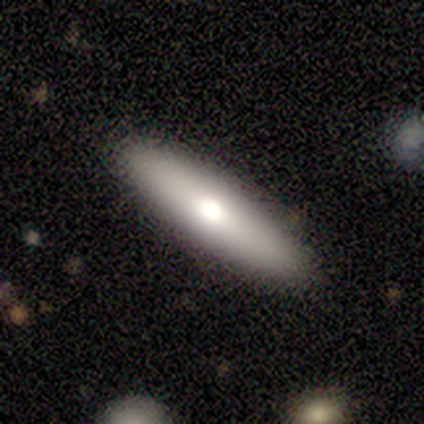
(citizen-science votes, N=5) A featured or disk galaxy (60%) with no bar (100%), no spiral arms (100%) and a moderate central bulge (50%, tied with small). Merging: minor disturbance (60%).